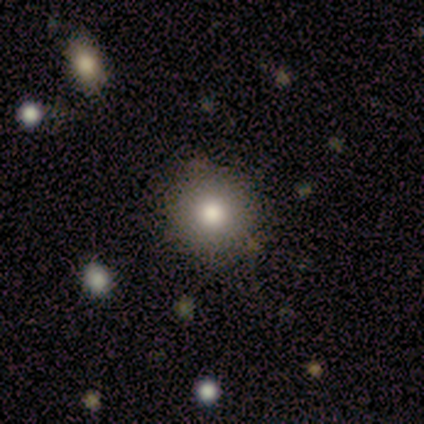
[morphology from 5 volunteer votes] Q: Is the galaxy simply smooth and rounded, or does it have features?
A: smooth — 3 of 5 (60%).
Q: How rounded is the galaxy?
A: round — 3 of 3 (100%).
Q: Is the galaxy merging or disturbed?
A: none — 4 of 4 (100%).